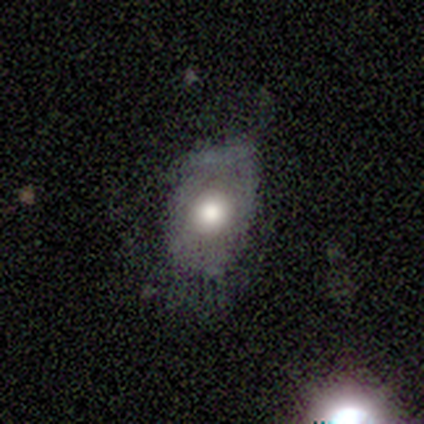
Smooth or featured?
  - smooth: 80% *
  - featured or disk: 20%
  - star or artifact: 0%
How rounded?
  - in between: 75% *
  - round: 25%
  - cigar-shaped: 0%
Merging?
  - none: 60% *
  - minor disturbance: 40%
  - major disturbance: 0%
  - merger: 0%